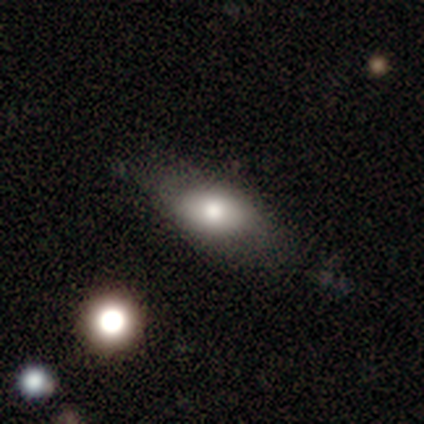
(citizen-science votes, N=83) Smooth or featured?
  - smooth: 78% *
  - featured or disk: 17%
  - star or artifact: 5%
How rounded?
  - in between: 91% *
  - round: 6%
  - cigar-shaped: 3%
Merging?
  - none: 58% *
  - minor disturbance: 28%
  - major disturbance: 10%
  - merger: 4%